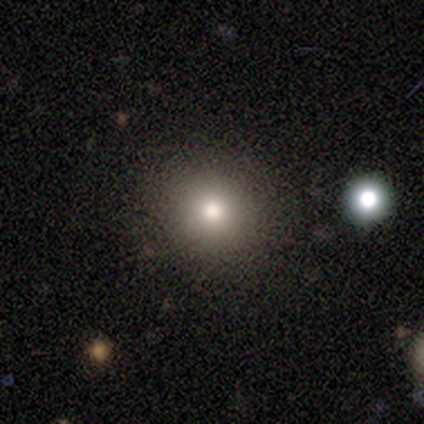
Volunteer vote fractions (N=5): smooth-or-featured: smooth: 40% (tied) | star or artifact: 40% (tied) | featured or disk: 20%
  how-rounded: round: 100% | in between: 0% | cigar-shaped: 0%
  merging: none: 67% | minor disturbance: 33% | major disturbance: 0% | merger: 0%